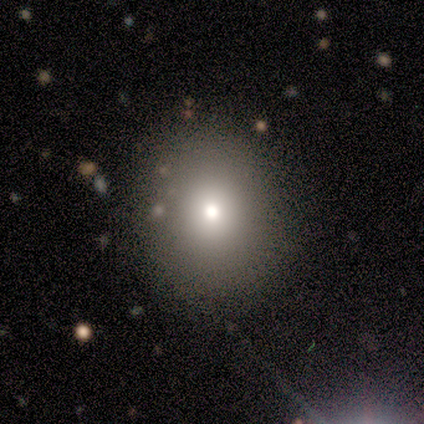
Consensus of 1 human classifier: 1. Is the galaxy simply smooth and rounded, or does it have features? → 100% star or artifact, 0% smooth, 0% featured or disk.